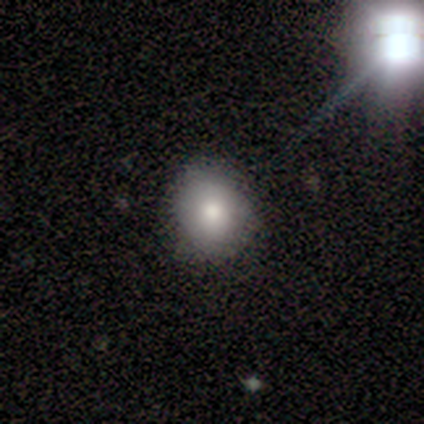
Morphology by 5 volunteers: This is clearly a smooth galaxy (100%). How rounded: clearly round (80%). Merging: clearly none (80%).